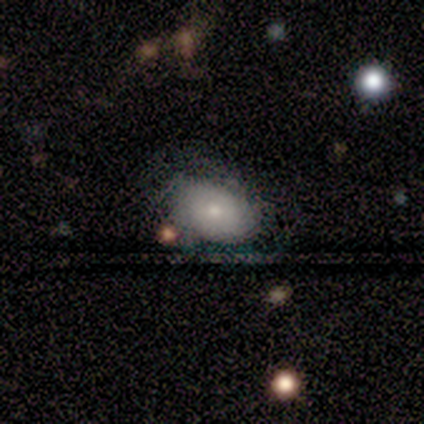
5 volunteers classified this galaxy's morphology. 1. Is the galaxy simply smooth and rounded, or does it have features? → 80% smooth, 20% featured or disk, 0% star or artifact.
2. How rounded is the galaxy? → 100% in between, 0% round, 0% cigar-shaped.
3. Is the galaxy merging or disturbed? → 60% minor disturbance, 20% none, 20% major disturbance, 0% merger.